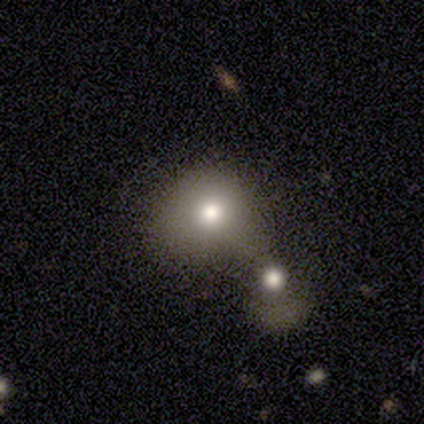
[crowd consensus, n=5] This appears to be a smooth galaxy with no disk features (60%) that is round (67%). Merging: none (60%).